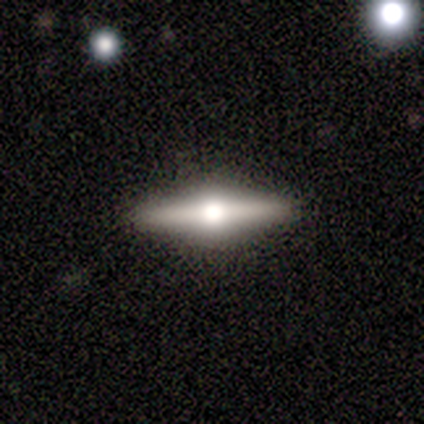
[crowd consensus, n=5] Smooth or featured? 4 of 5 (80%) said featured or disk. Edge-on disk? 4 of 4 (100%) said yes. Edge-on bulge? 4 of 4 (100%) said rounded. Merging? 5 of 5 (100%) said none.